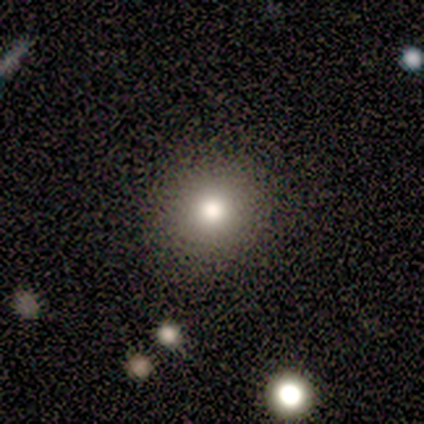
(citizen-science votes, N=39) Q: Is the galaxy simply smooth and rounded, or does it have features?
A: smooth — 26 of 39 (67%).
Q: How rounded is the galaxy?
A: round — 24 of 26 (92%).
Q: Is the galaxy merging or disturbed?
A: none — 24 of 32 (75%).